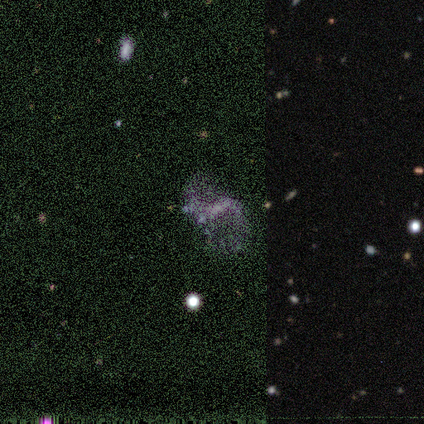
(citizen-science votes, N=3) A star or artifact, not a galaxy (67%).

Vote fractions:
- Smooth or featured? star or artifact: 67% / featured or disk: 33% / smooth: 0%